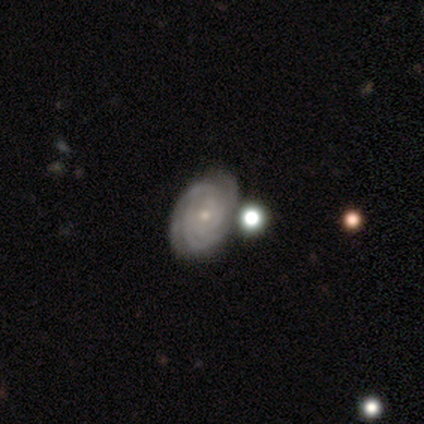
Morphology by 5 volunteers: A featured or disk galaxy (100%) with no bar (100%), tight (80%) spiral arms (100%) and a small central bulge (80%).

Vote fractions:
- Smooth or featured? featured or disk: 100% / smooth: 0% / star or artifact: 0%
- Edge-on disk? no: 100% / yes: 0%
- Bar? no: 100% / strong: 0% / weak: 0%
- Spiral arms? yes: 100% / no: 0%
- Spiral winding? tight: 80% / medium: 20% / loose: 0%
- Spiral arm count? can't tell: 80% / 3: 20% / 1: 0% / 2: 0% / 4: 0% / more than 4: 0%
- Bulge size? small: 80% / moderate: 20% / dominant: 0% / large: 0% / none: 0%
- Merging? none: 80% / merger: 20% / minor disturbance: 0% / major disturbance: 0%